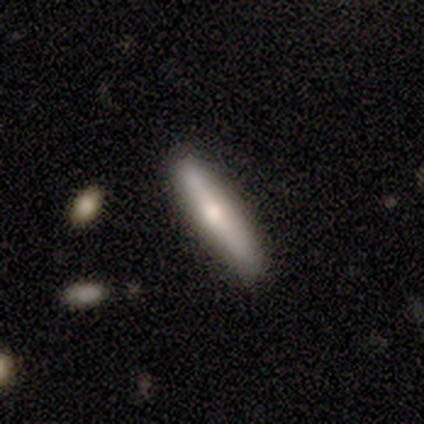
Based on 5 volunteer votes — Morphology: type=smooth (60%); roundness=cigar-shaped (100%); merging=none (100%).